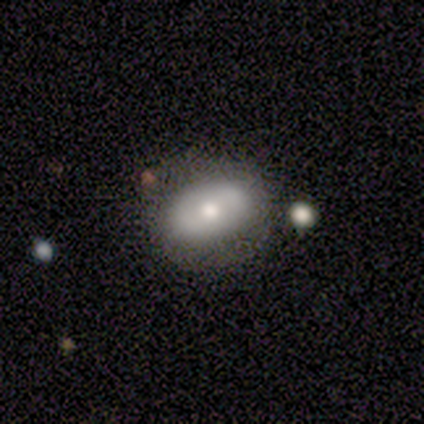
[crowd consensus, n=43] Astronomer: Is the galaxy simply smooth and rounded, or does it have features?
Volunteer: smooth — 58% (runner-up: featured or disk, 35%).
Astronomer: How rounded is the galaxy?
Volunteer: in between — 80%.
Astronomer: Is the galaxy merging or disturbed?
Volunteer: none — 75%.